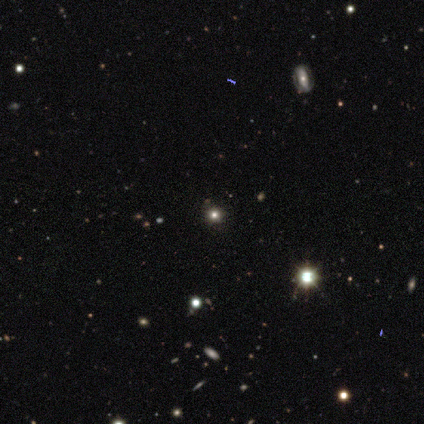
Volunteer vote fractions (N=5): A star or artifact, not a galaxy (60%).

Vote fractions:
- Smooth or featured? star or artifact: 60% / smooth: 20% / featured or disk: 20%